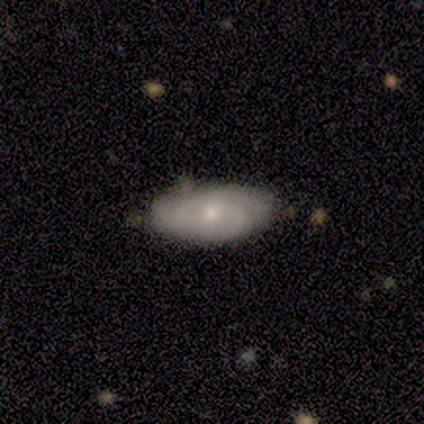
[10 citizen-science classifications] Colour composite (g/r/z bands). It shows a featured or disk galaxy (50%) with a weak bar (50%, tied with no), tight (100%) spiral arms (75%) and a small central bulge (75%). Merging: none (78%).